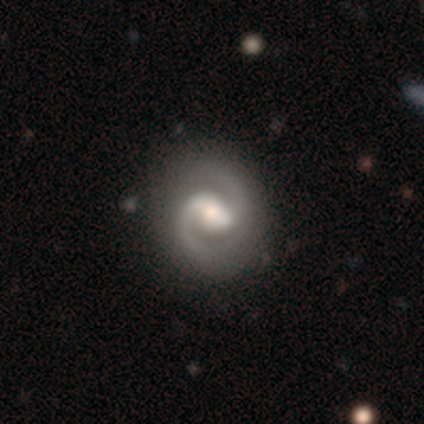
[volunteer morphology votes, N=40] Q: Smooth or featured?
A: featured or disk (92%); runner-up: smooth (8%)
Q: Edge-on disk?
A: no (95%); runner-up: yes (5%)
Q: Bar?
A: strong (49%); runner-up: weak (43%)
Q: Spiral arms?
A: yes (94%); runner-up: no (6%)
Q: Spiral winding?
A: medium (52%); runner-up: tight (42%)
Q: Spiral arm count?
A: 2 (97%); runner-up: 1 (3%)
Q: Bulge size?
A: moderate (57%); runner-up: large (20%)
Q: Merging?
A: none (68%); runner-up: merger (5%)